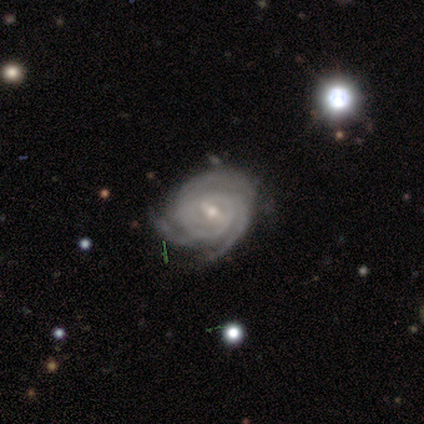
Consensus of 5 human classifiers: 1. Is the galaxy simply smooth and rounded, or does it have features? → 100% featured or disk, 0% smooth, 0% star or artifact.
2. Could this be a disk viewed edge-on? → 100% no, 0% yes.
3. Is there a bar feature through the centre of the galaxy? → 80% weak, 20% strong, 0% no.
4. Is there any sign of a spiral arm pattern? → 100% yes, 0% no.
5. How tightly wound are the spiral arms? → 100% tight, 0% medium, 0% loose.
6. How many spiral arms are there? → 100% 3, 0% 1, 0% 2, 0% 4, 0% more than 4, 0% can't tell.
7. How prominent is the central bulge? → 100% small, 0% dominant, 0% large, 0% moderate, 0% none.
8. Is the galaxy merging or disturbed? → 100% none, 0% minor disturbance, 0% major disturbance, 0% merger.